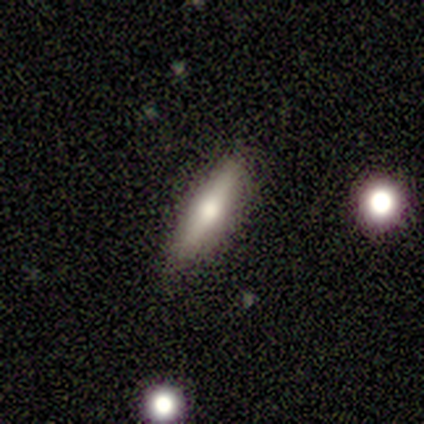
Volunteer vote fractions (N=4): Volunteers were most divided on "smooth or featured": featured or disk: 75%, smooth: 25%, star or artifact: 0%. More confident: edge-on disk — yes (100%); edge-on bulge — rounded (100%); merging — none (100%).